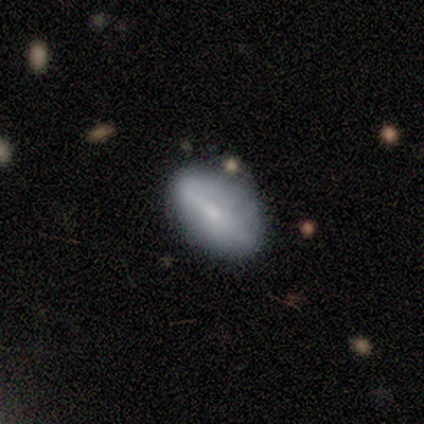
This is likely a smooth galaxy (60%). How rounded: clearly in between (100%). Merging: marginally none (40%, tied with minor disturbance).